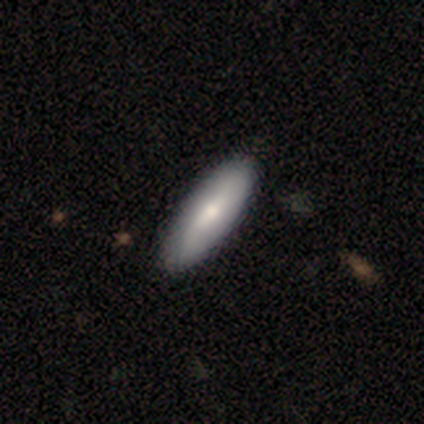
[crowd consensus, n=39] Volunteers were most divided on "smooth or featured": smooth: 62%, featured or disk: 36%, star or artifact: 3%. More confident: how rounded — in between (67%); merging — none (66%).